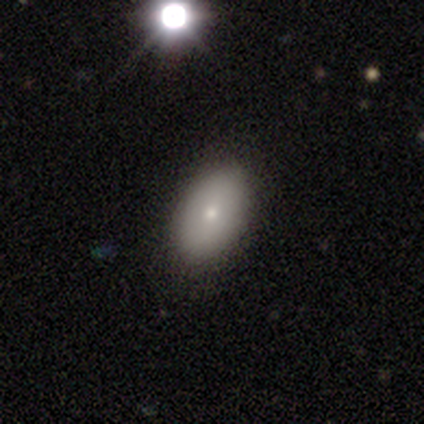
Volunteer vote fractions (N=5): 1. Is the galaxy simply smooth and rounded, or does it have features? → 80% smooth, 20% featured or disk, 0% star or artifact.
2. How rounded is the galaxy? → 100% in between, 0% round, 0% cigar-shaped.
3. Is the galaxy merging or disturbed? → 80% none, 20% minor disturbance, 0% major disturbance, 0% merger.